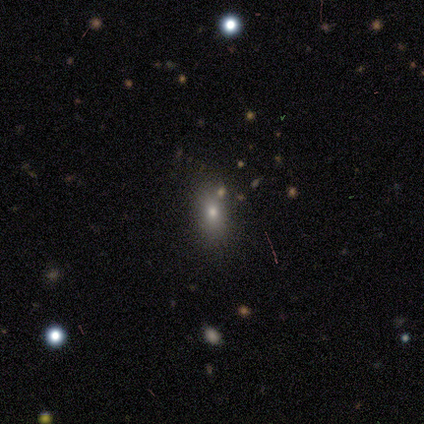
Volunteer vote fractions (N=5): Smooth or featured?
  - featured or disk: 60% *
  - smooth: 40%
  - star or artifact: 0%
Edge-on disk?
  - no: 100% *
  - yes: 0%
Bar?
  - no: 67% *
  - weak: 33%
  - strong: 0%
Spiral arms?
  - no: 100% *
  - yes: 0%
Bulge size?
  - dominant: 33% * (tied)
  - moderate: 33% * (tied)
  - none: 33% * (tied)
  - large: 0%
  - small: 0%
Merging?
  - none: 80% *
  - minor disturbance: 20%
  - major disturbance: 0%
  - merger: 0%